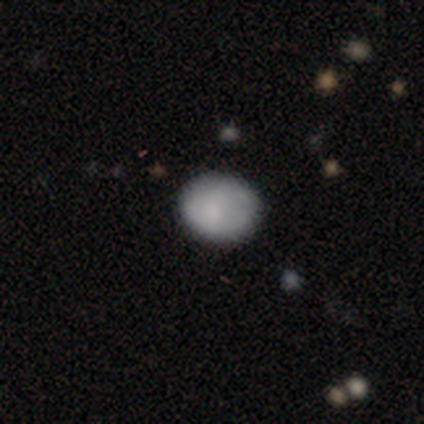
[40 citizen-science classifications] A smooth galaxy with no disk features (80%) that is round (62%).

Vote fractions:
- Smooth or featured? smooth: 80% / featured or disk: 10% / star or artifact: 10%
- How rounded? round: 62% / in between: 38% / cigar-shaped: 0%
- Merging? none: 81% / minor disturbance: 17% / major disturbance: 3% / merger: 0%